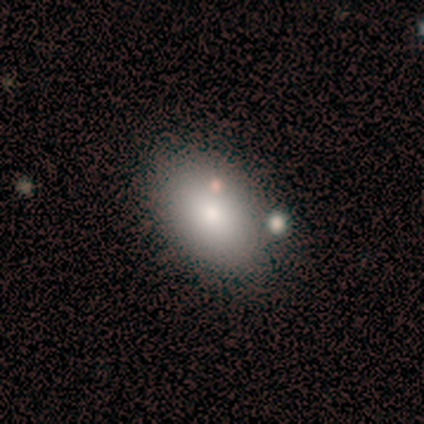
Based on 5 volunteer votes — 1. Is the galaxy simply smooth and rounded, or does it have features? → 80% smooth, 20% featured or disk, 0% star or artifact.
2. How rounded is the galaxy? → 75% in between, 25% round, 0% cigar-shaped.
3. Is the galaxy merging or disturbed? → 80% none, 20% minor disturbance, 0% major disturbance, 0% merger.